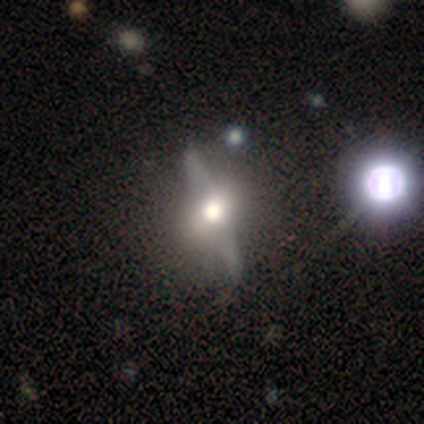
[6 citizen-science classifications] A featured or disk galaxy (67%) viewed edge-on (50%, tied with no) with a rounded central bulge (100%).

Vote fractions:
- Smooth or featured? featured or disk: 67% / smooth: 17% / star or artifact: 17%
- Edge-on disk? yes: 50% (tied) / no: 50% (tied)
- Edge-on bulge? rounded: 100% / boxy: 0% / none: 0%
- Merging? none: 80% / merger: 20% / minor disturbance: 0% / major disturbance: 0%